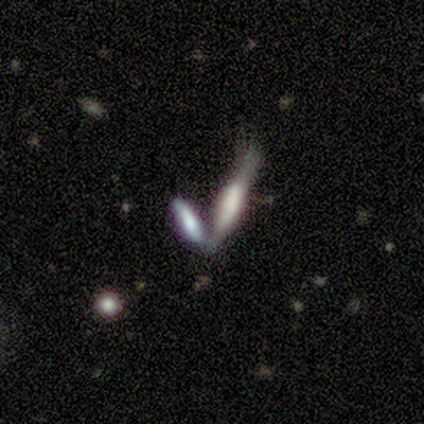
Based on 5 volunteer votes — Smooth or featured: smooth — 60% (featured or disk — 20%)
How rounded: cigar-shaped — 100%
Merging: merger — 75% (minor disturbance — 25%)